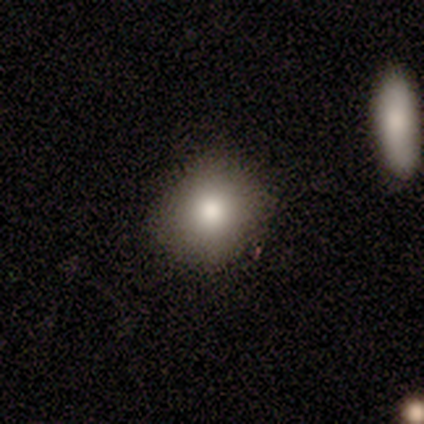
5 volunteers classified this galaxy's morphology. Volunteers were most divided on "smooth or featured": smooth: 60%, star or artifact: 40%, featured or disk: 0%. More confident: merging — none (100%); how rounded — round (67%).